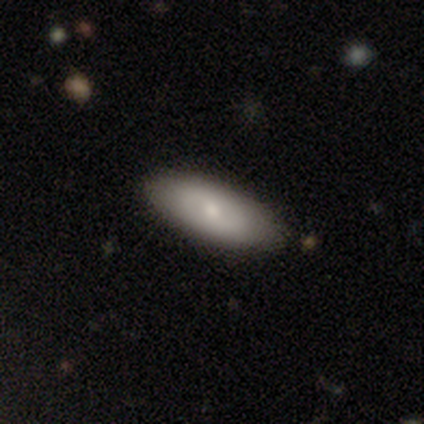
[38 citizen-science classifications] Smooth or featured?
  - smooth: 66% *
  - featured or disk: 29%
  - star or artifact: 5%
How rounded?
  - in between: 64% *
  - cigar-shaped: 36%
  - round: 0%
Merging?
  - none: 89% *
  - minor disturbance: 11%
  - major disturbance: 0%
  - merger: 0%